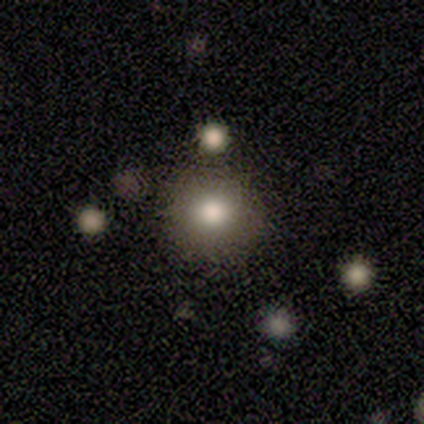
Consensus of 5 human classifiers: Q: Smooth or featured?
A: smooth (80%); runner-up: star or artifact (20%)
Q: How rounded?
A: round (100%)
Q: Merging?
A: none (100%)